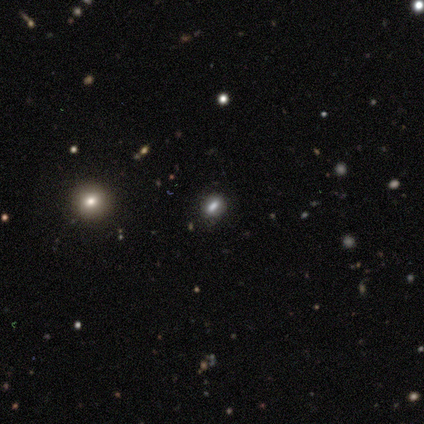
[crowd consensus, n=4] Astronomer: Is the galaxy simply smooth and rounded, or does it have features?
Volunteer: star or artifact — 50%.